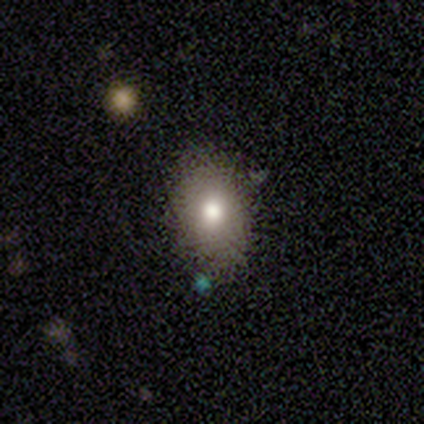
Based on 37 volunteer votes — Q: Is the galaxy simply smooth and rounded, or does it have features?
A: smooth — 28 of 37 (76%).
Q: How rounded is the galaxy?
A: in between — 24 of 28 (86%).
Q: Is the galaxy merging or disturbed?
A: none — 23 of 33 (70%).